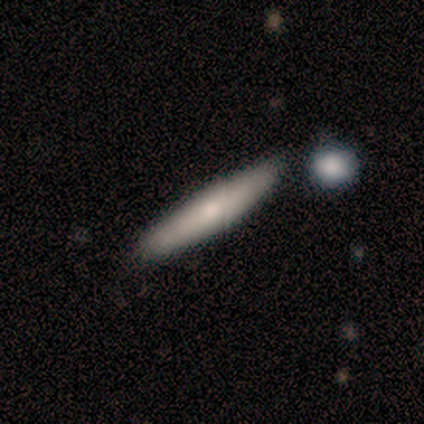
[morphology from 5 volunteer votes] Q: Smooth or featured?
A: featured or disk (60%); runner-up: smooth (40%)
Q: Edge-on disk?
A: no (67%); runner-up: yes (33%)
Q: Bar?
A: strong (50%); tied with: no (50%)
Q: Spiral arms?
A: no (100%)
Q: Bulge size?
A: large (50%); tied with: small (50%)
Q: Merging?
A: none (60%); runner-up: minor disturbance (20%)